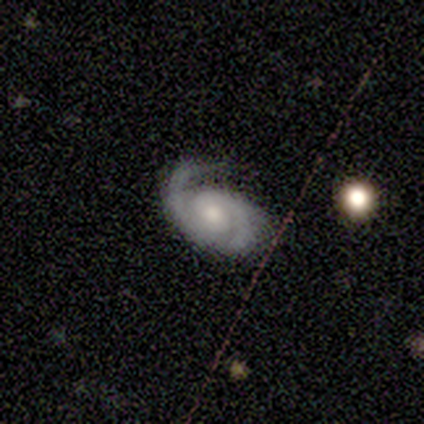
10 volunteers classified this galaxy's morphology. Smooth or featured?
  - featured or disk: 80% *
  - smooth: 10%
  - star or artifact: 10%
Edge-on disk?
  - no: 88% *
  - yes: 12%
Bar?
  - no: 71% *
  - strong: 14%
  - weak: 14%
Spiral arms?
  - yes: 100% *
  - no: 0%
Spiral winding?
  - tight: 71% *
  - medium: 29%
  - loose: 0%
Spiral arm count?
  - 2: 57% *
  - 1: 29%
  - can't tell: 14%
  - 3: 0%
  - 4: 0%
  - more than 4: 0%
Bulge size?
  - small: 57% *
  - moderate: 43%
  - dominant: 0%
  - large: 0%
  - none: 0%
Merging?
  - none: 67% *
  - minor disturbance: 22%
  - major disturbance: 11%
  - merger: 0%